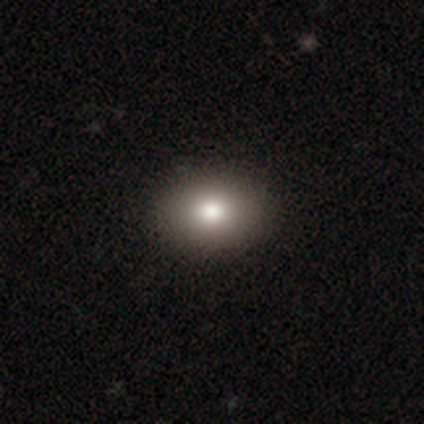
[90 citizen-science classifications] Q: Smooth or featured?
A: smooth (82%); runner-up: featured or disk (10%)
Q: How rounded?
A: in between (78%); runner-up: round (20%)
Q: Merging?
A: none (90%); runner-up: minor disturbance (8%)